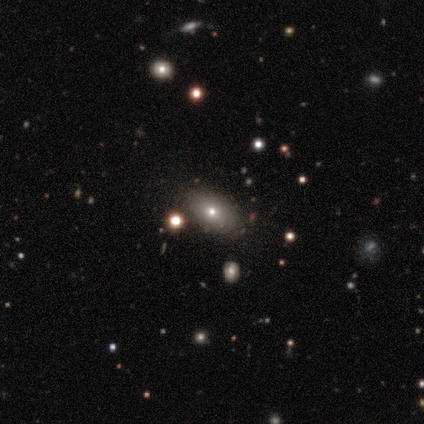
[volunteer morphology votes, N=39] This is likely a smooth galaxy (64%). How rounded: clearly in between (92%). Merging: clearly none (91%).